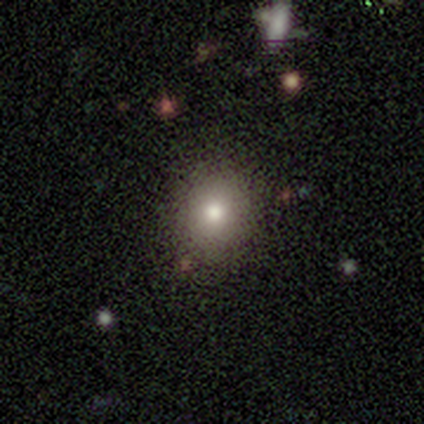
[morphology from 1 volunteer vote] Smooth or featured: smooth — 100%
How rounded: round — 100%
Merging: minor disturbance — 100%